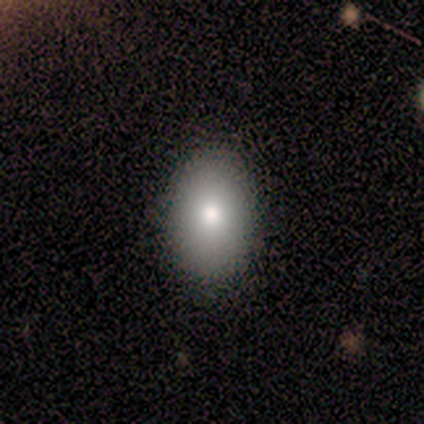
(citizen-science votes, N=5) smooth_or_featured: smooth (p=0.60) [alt: featured or disk p=0.40]
how_rounded: in between (p=1.00)
merging: none (p=0.80) [alt: minor disturbance p=0.20]